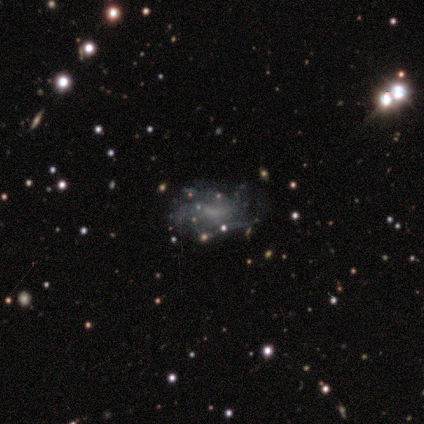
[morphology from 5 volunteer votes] type=featured or disk (60%); edge-on=no (100%); bar=weak (67%); spiral arms=no (67%); bulge=none (67%); merging=none (100%).